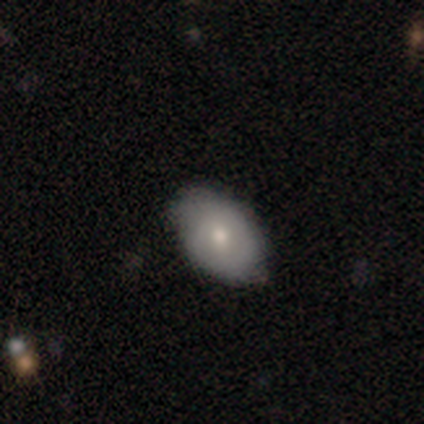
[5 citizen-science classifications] Smooth or featured? smooth (60%)
How rounded? in between (100%)
Merging? none (100%)